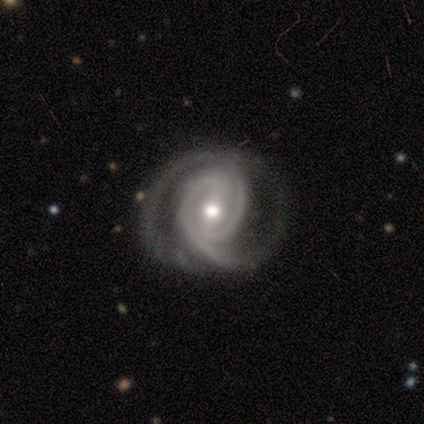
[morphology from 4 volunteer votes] Q: Smooth or featured?
A: featured or disk (100%)
Q: Edge-on disk?
A: no (100%)
Q: Bar?
A: weak (50%); tied with: no (50%)
Q: Spiral arms?
A: yes (50%); tied with: no (50%)
Q: Spiral winding?
A: tight (100%)
Q: Spiral arm count?
A: 2 (100%)
Q: Bulge size?
A: moderate (100%)
Q: Merging?
A: minor disturbance (50%); runner-up: none (25%)